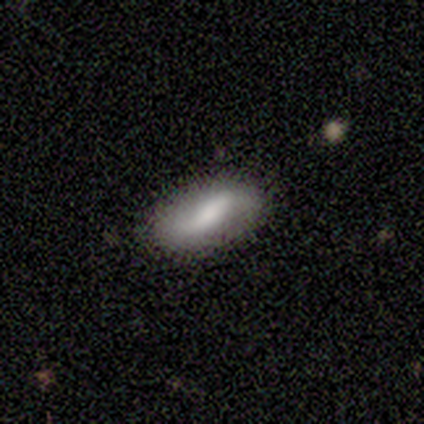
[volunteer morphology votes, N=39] Q: Smooth or featured?
A: featured or disk (54%); runner-up: smooth (44%)
Q: Edge-on disk?
A: no (100%)
Q: Bar?
A: no (38%); runner-up: weak (33%)
Q: Spiral arms?
A: yes (81%); runner-up: no (19%)
Q: Spiral winding?
A: loose (76%); runner-up: tight (12%)
Q: Spiral arm count?
A: 2 (94%); runner-up: can't tell (6%)
Q: Bulge size?
A: moderate (43%); runner-up: large (29%)
Q: Merging?
A: none (92%); runner-up: minor disturbance (8%)